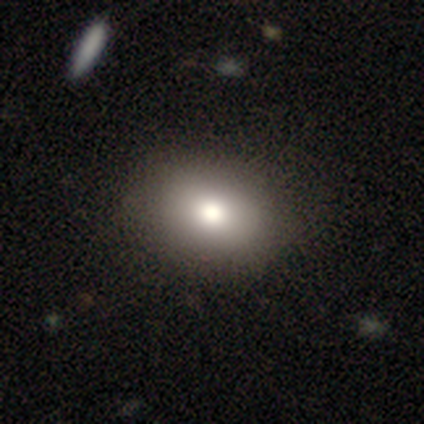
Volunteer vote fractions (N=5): smooth 80%, star or artifact 20%, featured or disk 0%. Down the decision tree: how rounded — in between (75%); merging — none (100%).